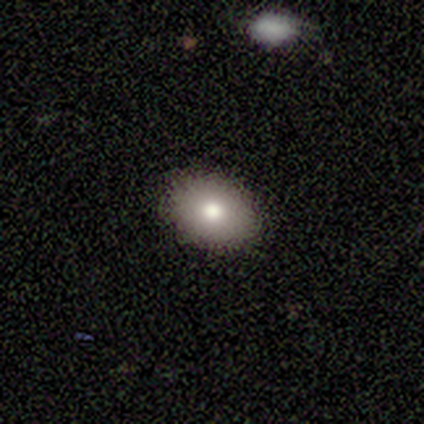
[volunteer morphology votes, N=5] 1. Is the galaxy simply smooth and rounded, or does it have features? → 60% smooth, 40% featured or disk, 0% star or artifact.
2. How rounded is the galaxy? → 67% round, 33% in between, 0% cigar-shaped.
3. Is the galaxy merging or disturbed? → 80% none, 20% minor disturbance, 0% major disturbance, 0% merger.